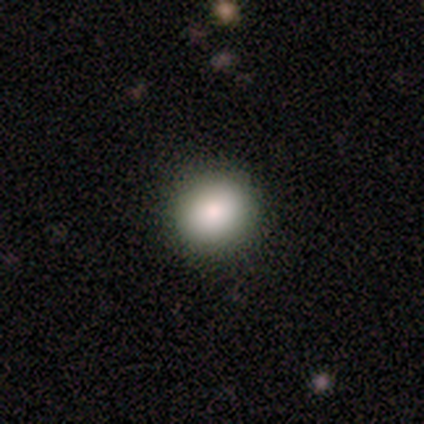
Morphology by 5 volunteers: A smooth galaxy with no disk features (100%) that is round (80%). Merging: none (100%).